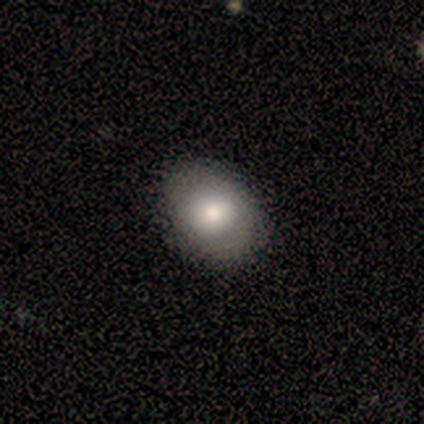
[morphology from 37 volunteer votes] This is likely a smooth galaxy (70%). How rounded: likely in between (65%). Merging: likely none (60%).